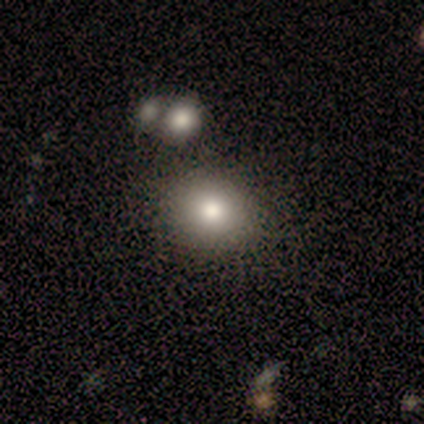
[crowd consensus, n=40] A smooth galaxy with no disk features (78%) that is round (74%). Merging: none (64%).